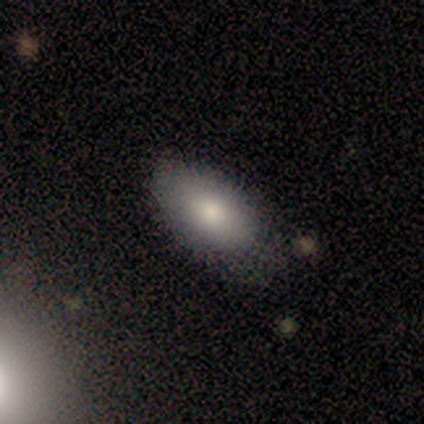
smooth_or_featured: smooth (p=0.80) [alt: star or artifact p=0.20]
how_rounded: in between (p=1.00)
merging: none (p=0.75) [alt: minor disturbance p=0.25]